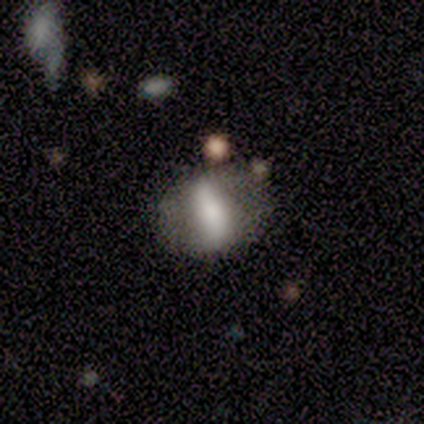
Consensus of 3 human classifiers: This is clearly a featured or disk galaxy (100%). It is clearly not viewed edge-on (100%). Bar: clearly strong (100%). Spiral arm pattern: likely yes (67%). Spiral arm count: clearly 2 (100%). Spiral winding: possibly medium (50%, tied with loose). Central bulge: marginally large (33%, tied with moderate and small). Merging: likely none (67%).